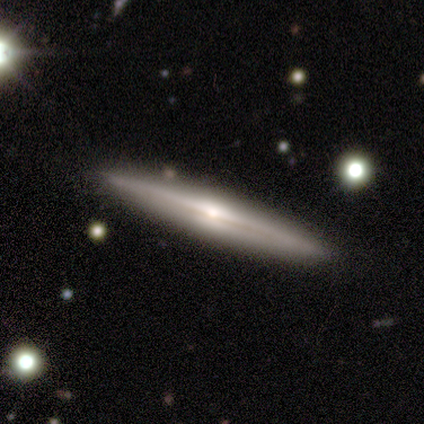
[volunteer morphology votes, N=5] Smooth or featured? featured or disk (60%)
Edge-on disk? yes (100%)
Edge-on bulge? rounded (100%)
Merging? none (80%)